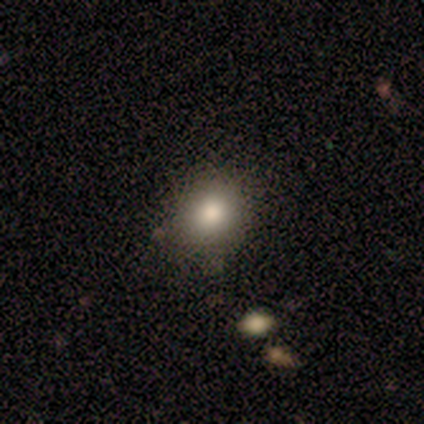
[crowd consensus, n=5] Smooth or featured: smooth — 60% (featured or disk — 20%)
How rounded: round — 67% (in between — 33%)
Merging: none — 100%